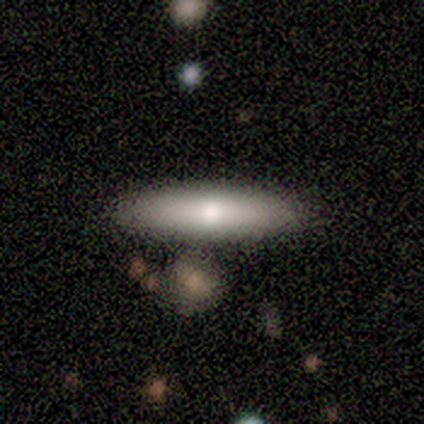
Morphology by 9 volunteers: Smooth or featured?
  - smooth: 100% *
  - featured or disk: 0%
  - star or artifact: 0%
How rounded?
  - cigar-shaped: 56% *
  - in between: 44%
  - round: 0%
Merging?
  - none: 100% *
  - minor disturbance: 0%
  - major disturbance: 0%
  - merger: 0%